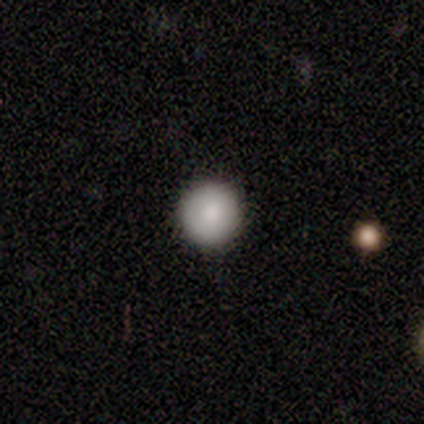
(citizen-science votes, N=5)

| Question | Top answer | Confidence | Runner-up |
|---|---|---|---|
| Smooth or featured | smooth | 100% | — |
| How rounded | round | 100% | — |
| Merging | none | 100% | — |